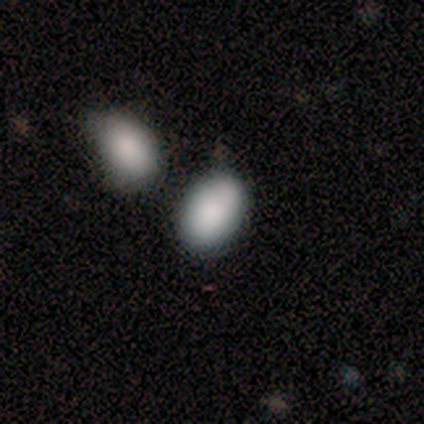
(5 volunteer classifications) A smooth galaxy with no disk features (80%) that is in between round and cigar-shaped (75%).

Vote fractions:
- Smooth or featured? smooth: 80% / star or artifact: 20% / featured or disk: 0%
- How rounded? in between: 75% / round: 25% / cigar-shaped: 0%
- Merging? none: 75% / minor disturbance: 25% / major disturbance: 0% / merger: 0%